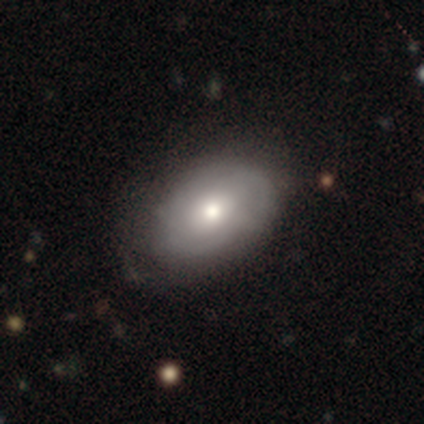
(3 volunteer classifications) Smooth or featured?
  - featured or disk: 67% *
  - smooth: 33%
  - star or artifact: 0%
Edge-on disk?
  - no: 100% *
  - yes: 0%
Bar?
  - weak: 50% * (tied)
  - no: 50% * (tied)
  - strong: 0%
Spiral arms?
  - yes: 100% *
  - no: 0%
Spiral winding?
  - medium: 100% *
  - tight: 0%
  - loose: 0%
Spiral arm count?
  - can't tell: 100% *
  - 1: 0%
  - 2: 0%
  - 3: 0%
  - 4: 0%
  - more than 4: 0%
Bulge size?
  - small: 100% *
  - dominant: 0%
  - large: 0%
  - moderate: 0%
  - none: 0%
Merging?
  - none: 100% *
  - minor disturbance: 0%
  - major disturbance: 0%
  - merger: 0%